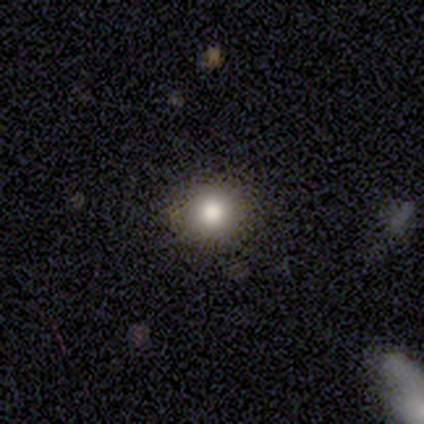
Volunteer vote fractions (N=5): Volunteers were most divided on "smooth or featured": smooth: 60%, featured or disk: 40%, star or artifact: 0%. More confident: how rounded — round (100%); merging — none (100%).